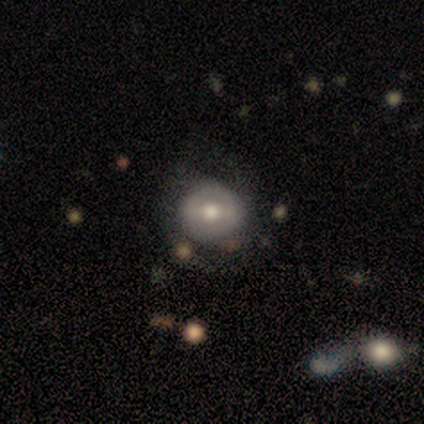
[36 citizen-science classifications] smooth 47% (tied), featured or disk 47% (tied), star or artifact 6%. Down the decision tree: how rounded — round (94%); merging — none (68%).